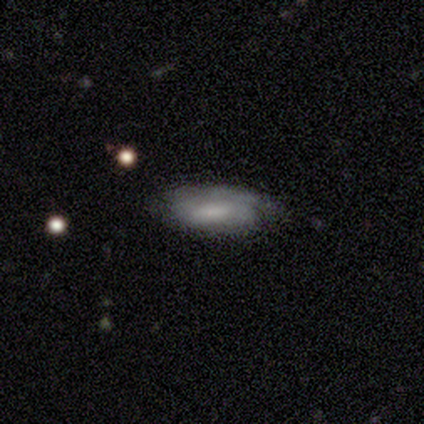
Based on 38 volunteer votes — This appears to be a featured or disk galaxy (61%) with no bar (52%), 1 (44%) tight (50%) spiral arms (76%) and a small central bulge (33%, tied with none). Merging: none (55%).